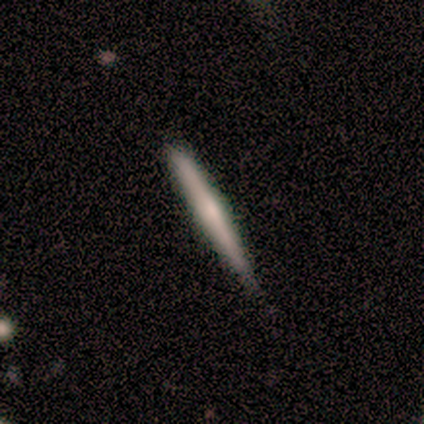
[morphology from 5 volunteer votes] featured or disk 80%, smooth 20%, star or artifact 0%. Down the decision tree: edge-on disk — yes (100%); edge-on bulge — rounded (100%); merging — none (80%).